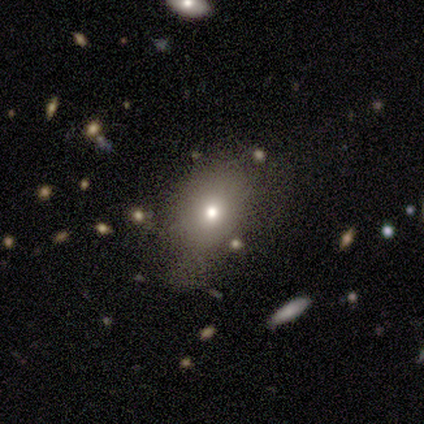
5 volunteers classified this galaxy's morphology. This is likely a smooth galaxy (60%). How rounded: clearly in between (100%). Merging: likely none (75%).